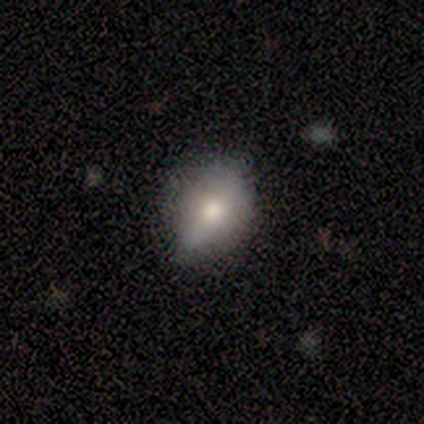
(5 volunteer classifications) This is likely a smooth galaxy (60%). How rounded: clearly in between (100%). Merging: clearly none (100%).